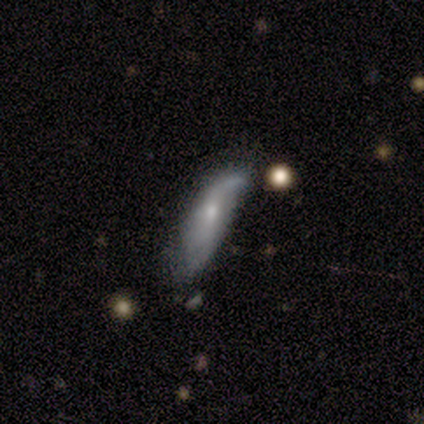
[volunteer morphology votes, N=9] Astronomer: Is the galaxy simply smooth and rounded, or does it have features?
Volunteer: featured or disk — 67%.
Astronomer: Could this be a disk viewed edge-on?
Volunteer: yes — 50%, tied with no at 50%.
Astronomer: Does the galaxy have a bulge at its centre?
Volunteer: rounded — 100%.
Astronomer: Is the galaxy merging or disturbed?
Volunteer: minor disturbance — 44% (runner-up: major disturbance, 33%).